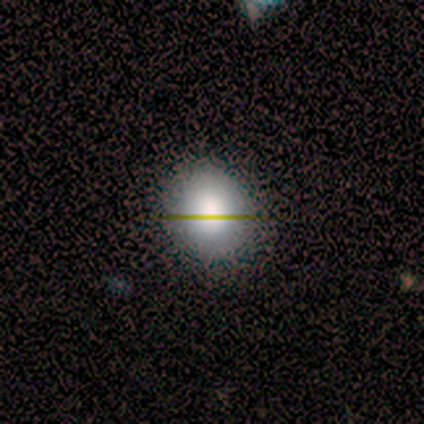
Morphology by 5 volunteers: Smooth or featured?
  - smooth: 80% *
  - star or artifact: 20%
  - featured or disk: 0%
How rounded?
  - round: 50% * (tied)
  - in between: 50% * (tied)
  - cigar-shaped: 0%
Merging?
  - none: 100% *
  - minor disturbance: 0%
  - major disturbance: 0%
  - merger: 0%